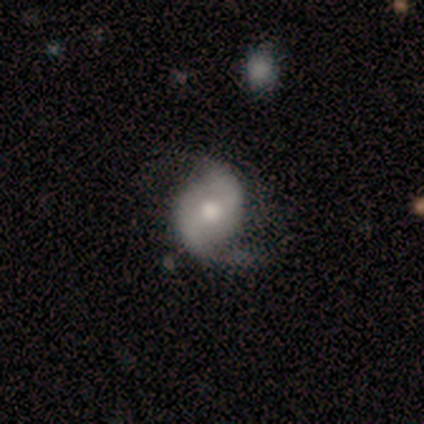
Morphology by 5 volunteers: Overall: featured or disk (80%). Edge-on disk: no (100%). Bar: weak (50%; strong 25%). Spiral arms: yes (100%). Spiral arm count: 2 (100%). Spiral winding: loose (50%; tight 25%). Bulge size: moderate (50%; large 25%). Merging: none (75%).